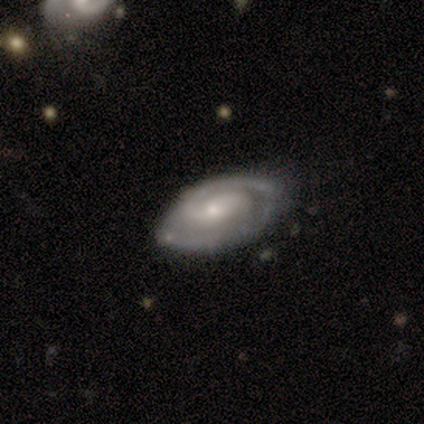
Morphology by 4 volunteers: Smooth or featured? featured or disk (100%)
Edge-on disk? no (100%)
Bar? no (75%)
Spiral arms? yes (100%)
Spiral winding? tight (50%, tied with medium)
Spiral arm count? 2 (100%)
Bulge size? moderate (50%, tied with small)
Merging? none (75%)